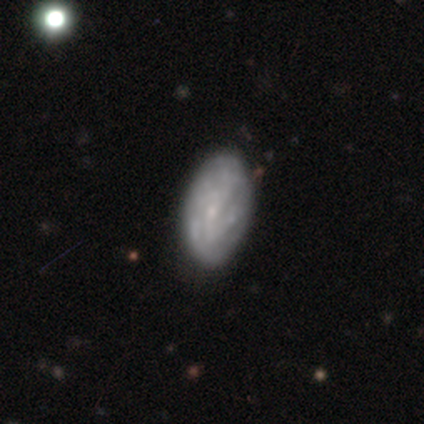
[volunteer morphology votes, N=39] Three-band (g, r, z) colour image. It shows a featured or disk galaxy (62%) with no bar (71%), medium (47%) spiral arms (71%) and a small central bulge (62%). Merging: none (56%).